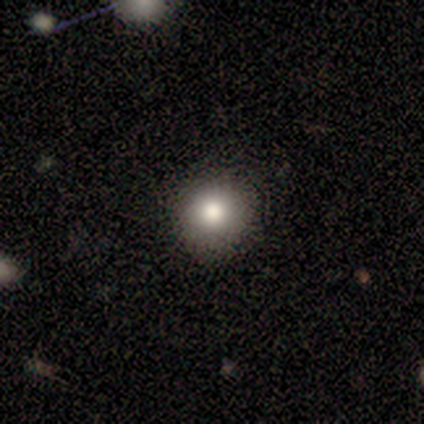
Smooth or featured?
  - smooth: 75% *
  - featured or disk: 25%
  - star or artifact: 0%
How rounded?
  - round: 100% *
  - in between: 0%
  - cigar-shaped: 0%
Merging?
  - none: 100% *
  - minor disturbance: 0%
  - major disturbance: 0%
  - merger: 0%